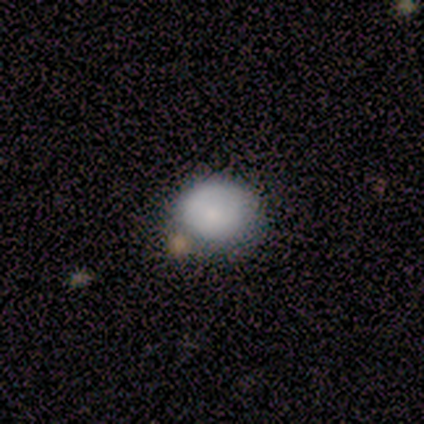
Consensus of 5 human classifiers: Smooth or featured?
  - featured or disk: 60% *
  - smooth: 40%
  - star or artifact: 0%
Edge-on disk?
  - no: 100% *
  - yes: 0%
Bar?
  - no: 67% *
  - weak: 33%
  - strong: 0%
Spiral arms?
  - no: 67% *
  - yes: 33%
Bulge size?
  - small: 67% *
  - moderate: 33%
  - dominant: 0%
  - large: 0%
  - none: 0%
Merging?
  - none: 60% *
  - minor disturbance: 20%
  - major disturbance: 20%
  - merger: 0%